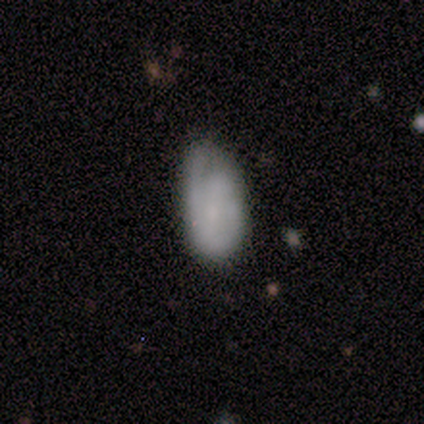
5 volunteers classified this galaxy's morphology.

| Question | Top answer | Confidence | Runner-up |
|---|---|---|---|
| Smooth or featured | smooth | 60% | featured or disk (20%) |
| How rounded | in between | 100% | — |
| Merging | minor disturbance | 50% | none (25%) |